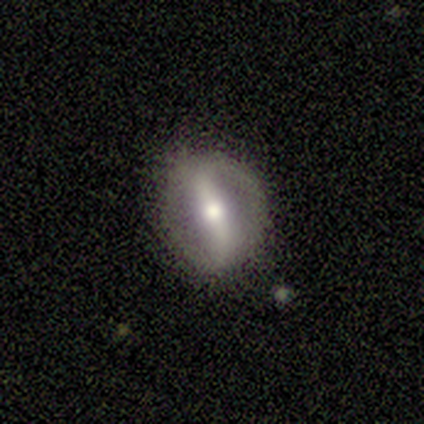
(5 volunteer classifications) Smooth or featured? 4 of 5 (80%) said featured or disk. Edge-on disk? 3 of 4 (75%) said no. Bar? 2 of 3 (67%) said strong. Spiral arms? 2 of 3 (67%) said no. Bulge size? 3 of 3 (100%) said moderate. Merging? 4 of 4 (100%) said none.